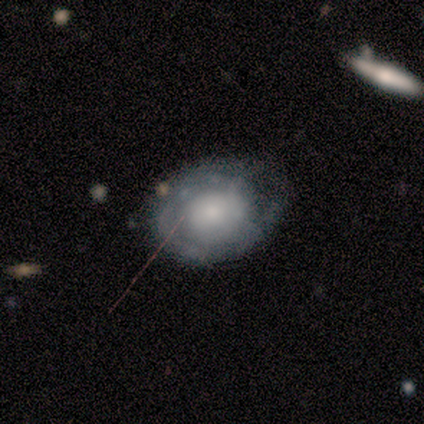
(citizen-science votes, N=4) Volunteers were most divided on "bar" (2-way tie): weak: 50%, no: 50%, strong: 0%; "bulge size" (2-way tie): large: 50%, moderate: 50%, dominant: 0%, small: 0%, none: 0%. More confident: edge-on disk — no (100%); spiral arms — yes (100%); spiral winding — tight (100%); spiral arm count — can't tell (100%); merging — none (67%); smooth or featured — featured or disk (50%).